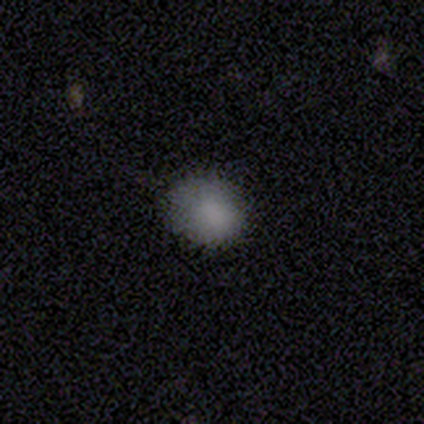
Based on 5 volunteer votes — smooth 100%, featured or disk 0%, star or artifact 0%. Down the decision tree: how rounded — round (60%); merging — minor disturbance (80%).